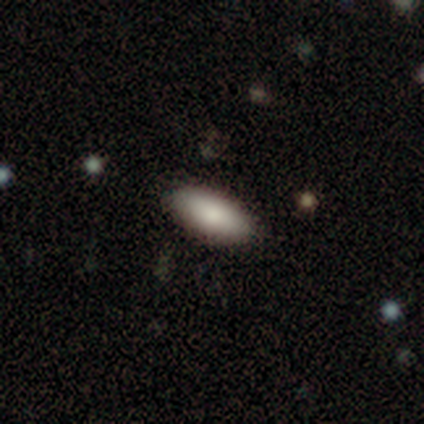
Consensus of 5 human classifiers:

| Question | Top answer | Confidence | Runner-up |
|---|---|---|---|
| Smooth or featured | smooth | 100% | — |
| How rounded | in between | 100% | — |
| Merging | none | 80% | minor disturbance (20%) |